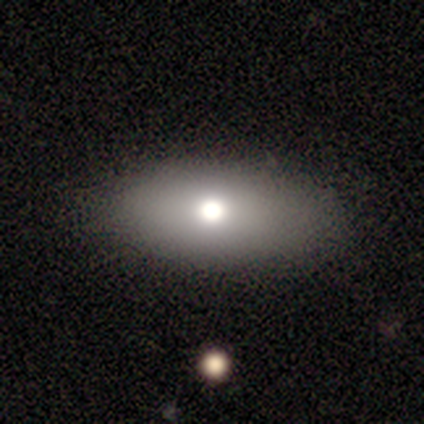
Consensus on every question: smooth or featured — smooth (100%); how rounded — in between (100%); merging — none (100%).